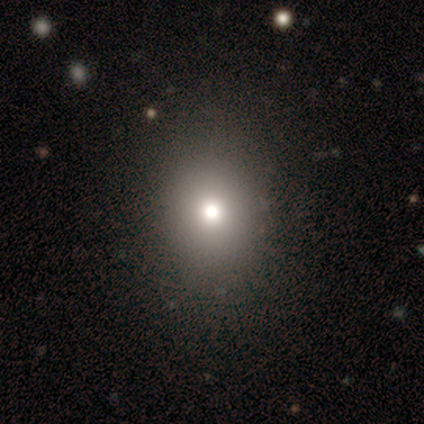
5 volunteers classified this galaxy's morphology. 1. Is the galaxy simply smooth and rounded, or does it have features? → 60% smooth, 40% star or artifact, 0% featured or disk.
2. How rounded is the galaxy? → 100% round, 0% in between, 0% cigar-shaped.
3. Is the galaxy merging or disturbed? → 100% none, 0% minor disturbance, 0% major disturbance, 0% merger.